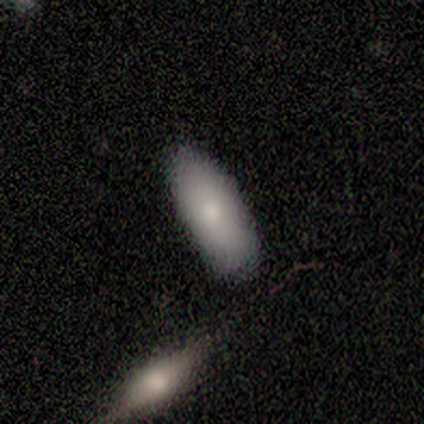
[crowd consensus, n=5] A smooth galaxy with no disk features (100%) that is in between round and cigar-shaped (80%). Merging: none (100%).